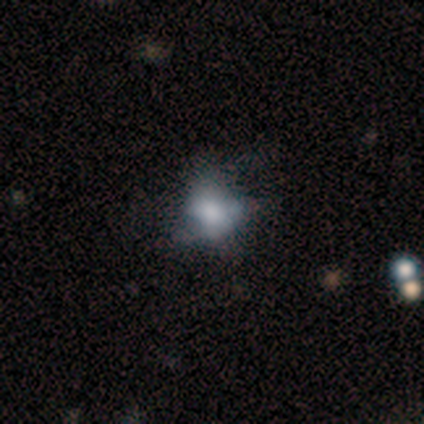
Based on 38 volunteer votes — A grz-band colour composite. It shows a smooth galaxy with no disk features (55%) that is in between round and cigar-shaped (67%). Merging: major disturbance (26%).